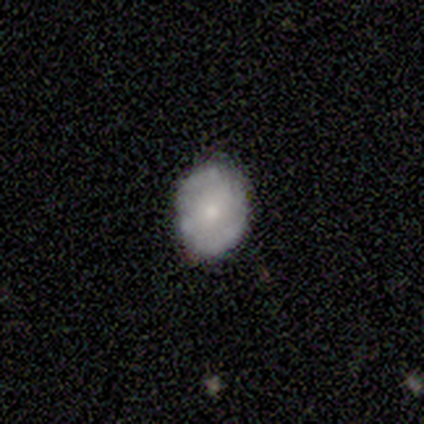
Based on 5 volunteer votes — smooth_or_featured: smooth (p=0.80) [alt: featured or disk p=0.20]
how_rounded: in between (p=0.75) [alt: round p=0.25]
merging: none (p=0.60) [alt: minor disturbance p=0.20]